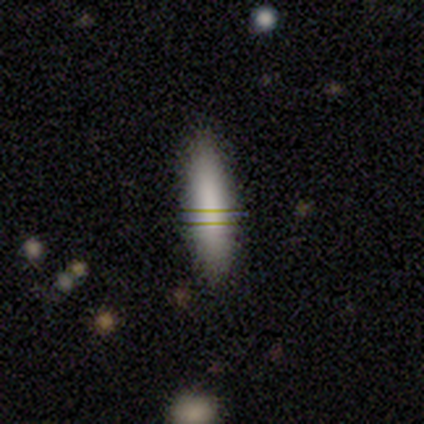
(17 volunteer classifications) Smooth or featured?
  - smooth: 88% *
  - featured or disk: 12%
  - star or artifact: 0%
How rounded?
  - cigar-shaped: 93% *
  - in between: 7%
  - round: 0%
Merging?
  - none: 94% *
  - major disturbance: 6%
  - minor disturbance: 0%
  - merger: 0%